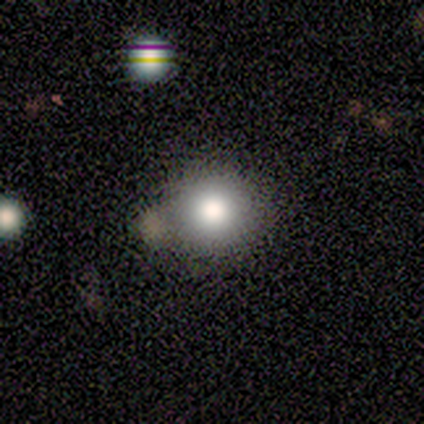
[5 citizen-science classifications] Overall: smooth (80%). How rounded: round (100%). Merging: none (60%; merger 40%).